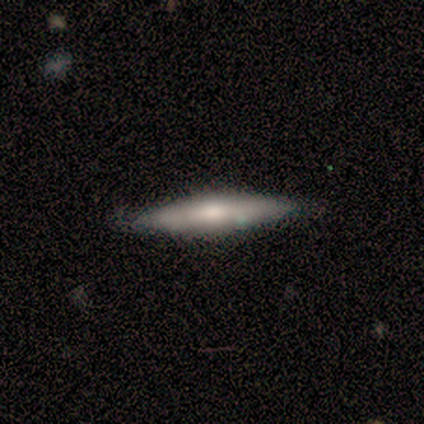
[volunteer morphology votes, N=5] A smooth galaxy with no disk features (60%) that is cigar-shaped (100%). Merging: none (100%).